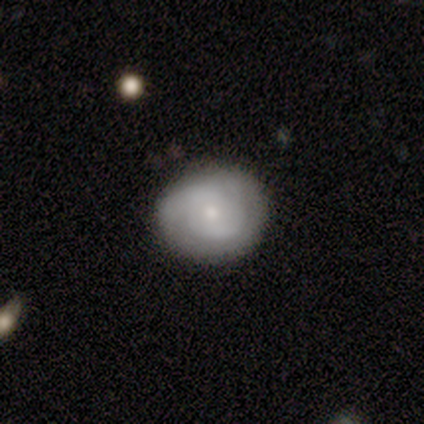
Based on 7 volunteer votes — Morphology: type=featured or disk (86%); edge-on=no (100%); bar=no (83%); spiral arms=yes (67%); winding=tight (100%); arm count=2 (50%); bulge=small (50%); merging=none (57%).